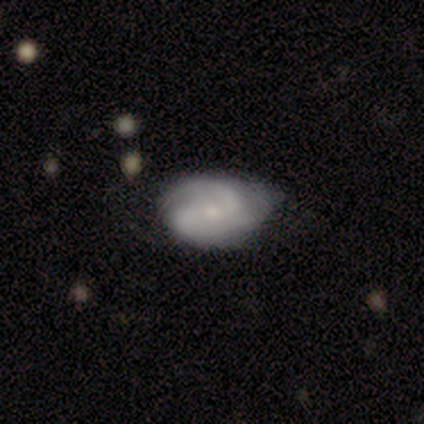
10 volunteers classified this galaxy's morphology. Q: Smooth or featured?
A: featured or disk (80%); runner-up: smooth (20%)
Q: Edge-on disk?
A: no (100%)
Q: Bar?
A: no (75%); runner-up: weak (25%)
Q: Spiral arms?
A: yes (88%); runner-up: no (12%)
Q: Spiral winding?
A: medium (57%); runner-up: loose (29%)
Q: Spiral arm count?
A: 2 (100%)
Q: Bulge size?
A: small (62%); runner-up: moderate (25%)
Q: Merging?
A: none (50%); runner-up: minor disturbance (40%)